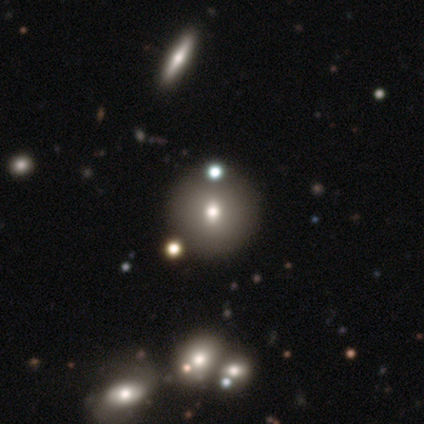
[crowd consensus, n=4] smooth-or-featured: smooth: 75% | featured or disk: 25% | star or artifact: 0%
  how-rounded: round: 100% | in between: 0% | cigar-shaped: 0%
  merging: none: 100% | minor disturbance: 0% | major disturbance: 0% | merger: 0%